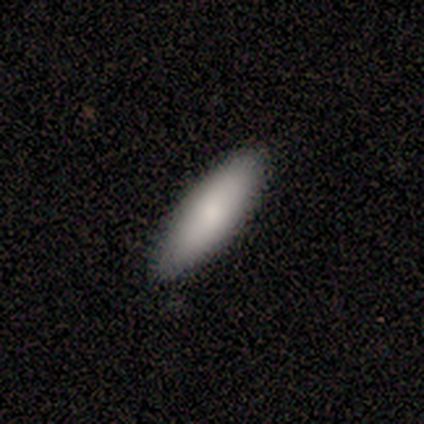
Overall: smooth (100%). How rounded: in between (100%). Merging: none (80%).